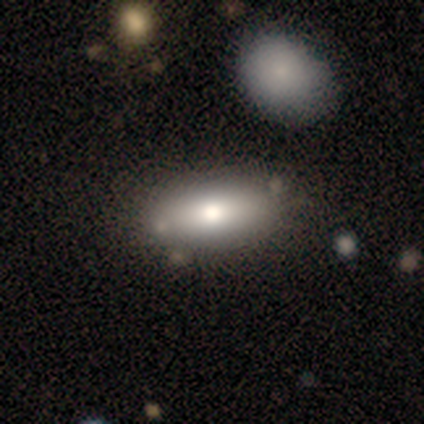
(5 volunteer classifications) smooth-or-featured: smooth: 60% | featured or disk: 40% | star or artifact: 0%
  how-rounded: in between: 67% | cigar-shaped: 33% | round: 0%
  merging: none: 100% | minor disturbance: 0% | major disturbance: 0% | merger: 0%